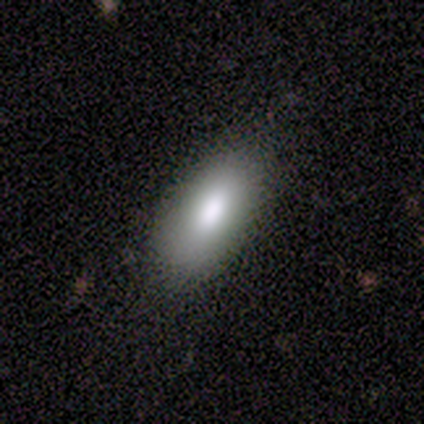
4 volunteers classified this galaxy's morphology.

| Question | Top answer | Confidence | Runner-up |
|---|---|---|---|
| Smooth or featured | smooth | 100% | — |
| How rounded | in between | 75% | cigar-shaped (25%) |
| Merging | none | 100% | — |